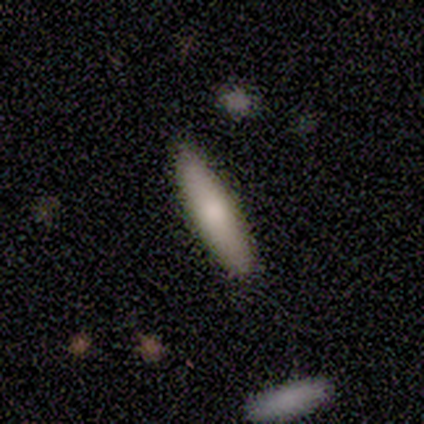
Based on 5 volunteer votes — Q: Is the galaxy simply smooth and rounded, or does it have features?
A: smooth — 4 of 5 (80%).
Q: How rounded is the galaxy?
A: in between — 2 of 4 (50%, tied with cigar-shaped).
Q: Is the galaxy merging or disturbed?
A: none — 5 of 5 (100%).